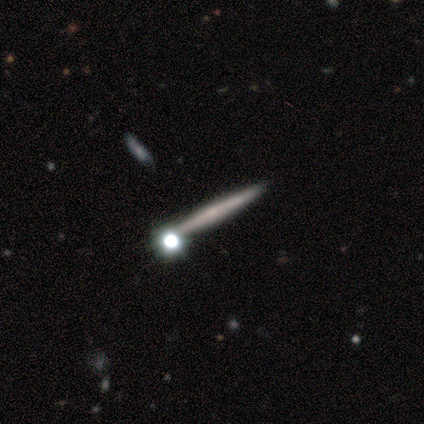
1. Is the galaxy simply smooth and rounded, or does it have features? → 46% featured or disk, 38% smooth, 15% star or artifact.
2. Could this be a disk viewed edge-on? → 94% yes, 6% no.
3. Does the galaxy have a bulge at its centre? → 76% none, 24% rounded, 0% boxy.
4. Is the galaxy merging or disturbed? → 85% none, 9% merger, 3% minor disturbance, 3% major disturbance.